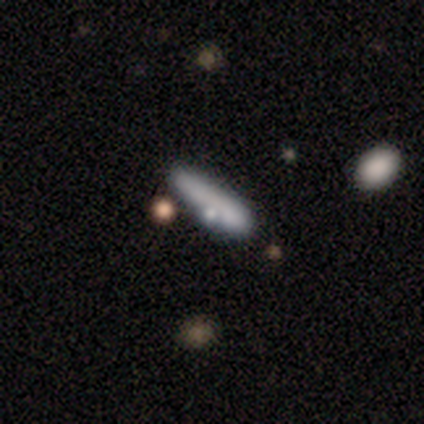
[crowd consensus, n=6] A smooth galaxy with no disk features (67%) that is cigar-shaped (75%). Merging: none (50%).